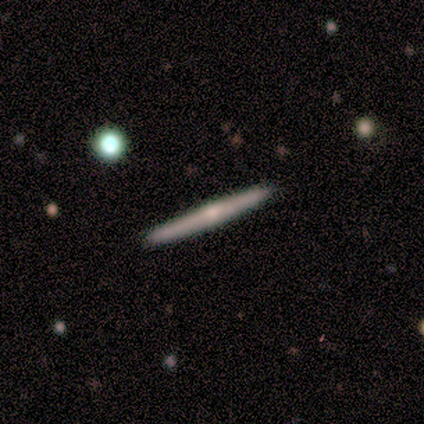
Smooth or featured?
  - featured or disk: 83% *
  - smooth: 17%
  - star or artifact: 0%
Edge-on disk?
  - yes: 100% *
  - no: 0%
Edge-on bulge?
  - rounded: 100% *
  - boxy: 0%
  - none: 0%
Merging?
  - none: 100% *
  - minor disturbance: 0%
  - major disturbance: 0%
  - merger: 0%